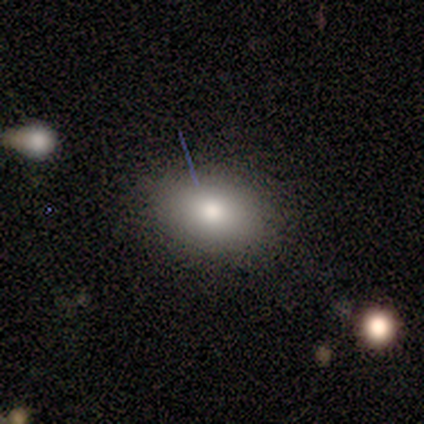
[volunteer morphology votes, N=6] Volunteers were most divided on "smooth or featured": smooth: 67%, featured or disk: 17%, star or artifact: 17%. More confident: how rounded — in between (100%); merging — none (80%).